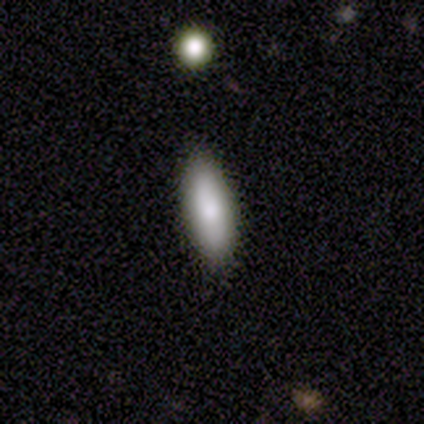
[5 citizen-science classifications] Smooth or featured? 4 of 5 (80%) said smooth. How rounded? 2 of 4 (50%, tied with cigar-shaped) said in between. Merging? 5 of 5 (100%) said none.